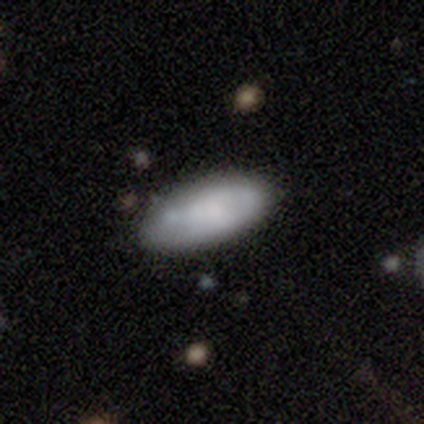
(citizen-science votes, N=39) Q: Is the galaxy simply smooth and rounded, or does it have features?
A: smooth — 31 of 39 (79%).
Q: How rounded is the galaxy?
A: in between — 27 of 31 (87%).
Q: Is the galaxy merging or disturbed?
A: none — 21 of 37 (57%).